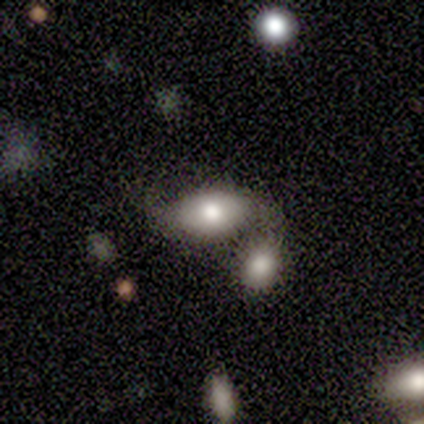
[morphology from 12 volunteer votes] smooth 100%, featured or disk 0%, star or artifact 0%. Down the decision tree: how rounded — in between (100%); merging — none (42%, tied with merger).